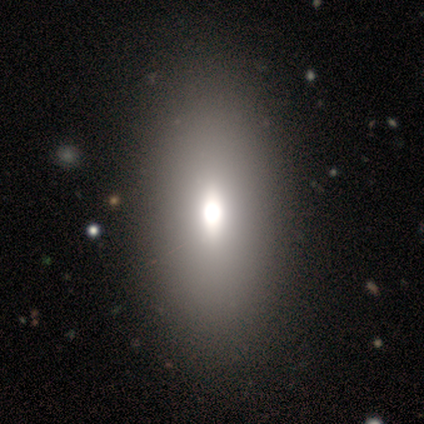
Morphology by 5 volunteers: Smooth or featured? smooth (60%)
How rounded? in between (100%)
Merging? none (75%)